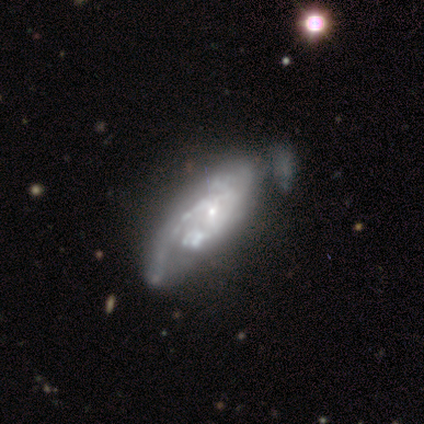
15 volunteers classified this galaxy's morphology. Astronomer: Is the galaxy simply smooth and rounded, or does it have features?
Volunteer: featured or disk — 100%.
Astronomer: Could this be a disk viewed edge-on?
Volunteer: no — 100%.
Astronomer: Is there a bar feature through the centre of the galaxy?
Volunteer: no — 80%.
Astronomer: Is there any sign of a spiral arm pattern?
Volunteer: yes — 87%.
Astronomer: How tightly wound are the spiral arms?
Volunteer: tight — 54% (runner-up: medium, 46%).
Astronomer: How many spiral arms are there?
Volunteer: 1 — 31% (runner-up: 2, 23%).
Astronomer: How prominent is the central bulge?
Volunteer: small — 80%.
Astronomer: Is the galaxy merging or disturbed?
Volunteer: minor disturbance — 40% (runner-up: none, 33%).